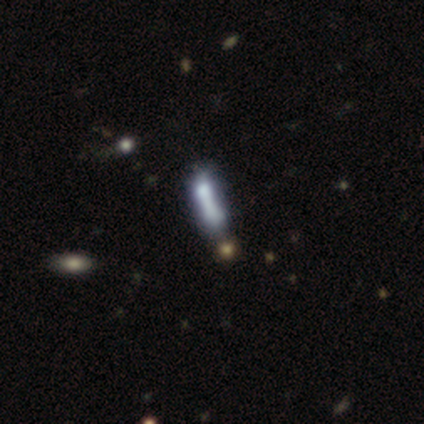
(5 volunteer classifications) Volunteers were most divided on "smooth or featured" (2-way tie): smooth: 40%, featured or disk: 40%, star or artifact: 20%; "how rounded" (2-way tie): in between: 50%, cigar-shaped: 50%, round: 0%. More confident: merging — none (75%).